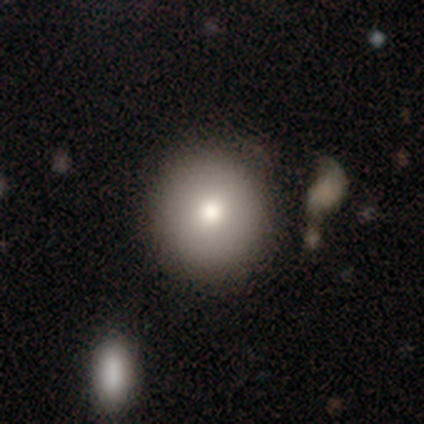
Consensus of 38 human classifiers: Smooth or featured? 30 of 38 (79%) said smooth. How rounded? 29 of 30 (97%) said round. Merging? 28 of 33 (85%) said none.